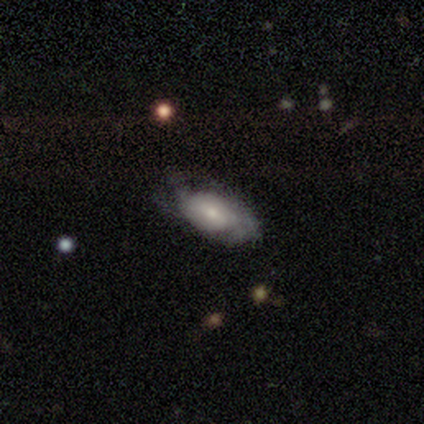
smooth-or-featured: featured or disk: 54% | smooth: 42% | star or artifact: 4%
  disk-edge-on: no: 91% | yes: 9%
    bar: no: 71% | weak: 27% | strong: 2%
    has-spiral-arms: yes: 88% | no: 12%
      spiral-winding: tight: 58% | medium: 33% | loose: 8%
      spiral-arm-count: can't tell: 61% | 2: 19% | 4: 8% | 1: 6% | 3: 3% | more than 4: 3%
    bulge-size: small: 51% | moderate: 29% | large: 15% | none: 5% | dominant: 0%
  merging: none: 52% | minor disturbance: 32% | major disturbance: 14% | merger: 1%